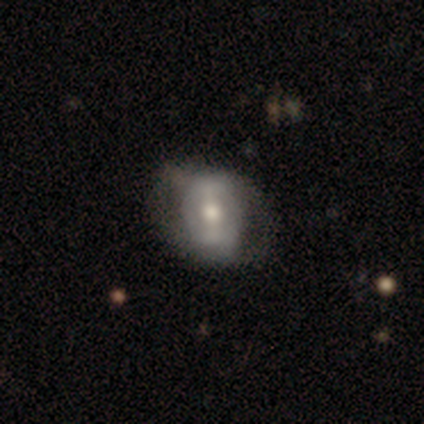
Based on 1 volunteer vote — Q: Smooth or featured?
A: smooth (100%)
Q: How rounded?
A: in between (100%)
Q: Merging?
A: major disturbance (100%)